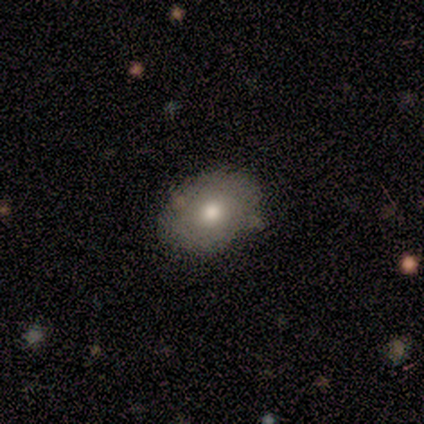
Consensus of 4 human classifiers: This is possibly a smooth galaxy (50%, tied with featured or disk). How rounded: clearly in between (100%). Merging: likely none (75%).